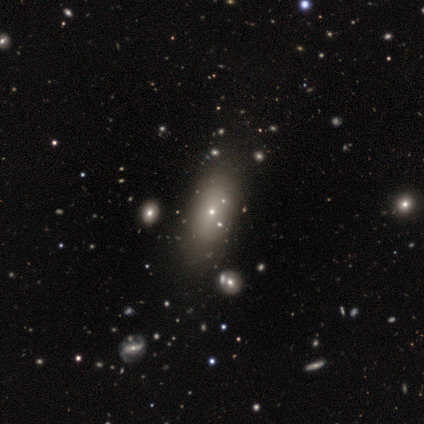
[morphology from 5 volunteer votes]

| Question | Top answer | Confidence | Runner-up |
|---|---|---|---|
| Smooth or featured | smooth | 60% | featured or disk (40%) |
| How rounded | in between | 67% | round (33%) |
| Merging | none | 80% | minor disturbance (20%) |